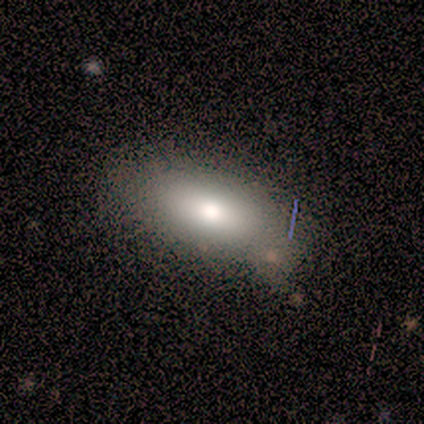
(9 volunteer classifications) smooth 67%, featured or disk 33%, star or artifact 0%. Down the decision tree: how rounded — in between (67%); merging — none (67%).